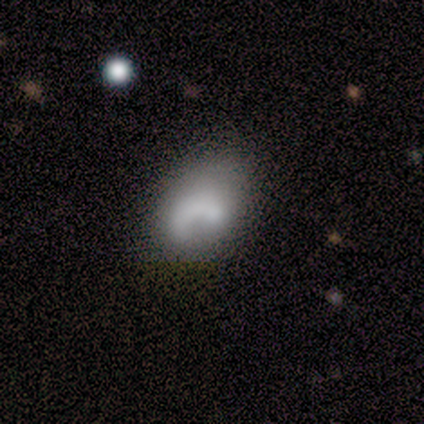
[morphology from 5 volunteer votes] smooth_or_featured: smooth (p=0.60) [alt: featured or disk p=0.40]
how_rounded: in between (p=1.00)
merging: none (p=0.60) [alt: minor disturbance p=0.20]